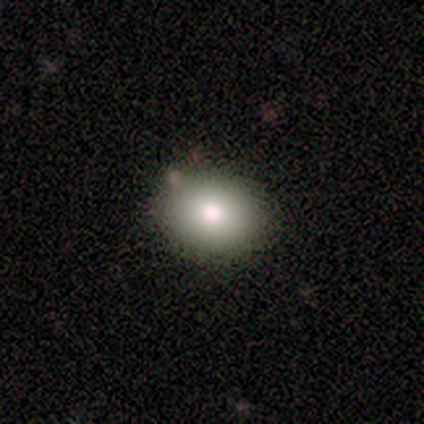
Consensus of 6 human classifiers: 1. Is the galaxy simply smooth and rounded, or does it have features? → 83% smooth, 17% featured or disk, 0% star or artifact.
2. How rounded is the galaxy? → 60% round, 40% in between, 0% cigar-shaped.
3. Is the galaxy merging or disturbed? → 100% none, 0% minor disturbance, 0% major disturbance, 0% merger.